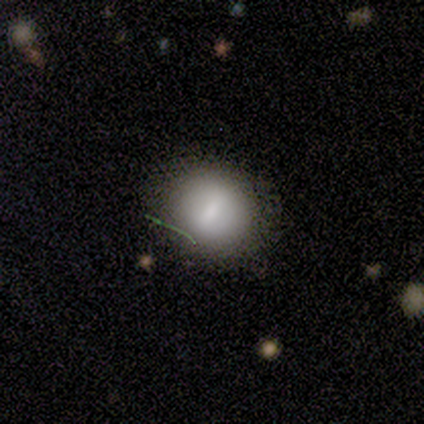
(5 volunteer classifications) Smooth or featured? smooth (100%)
How rounded? round (80%)
Merging? none (100%)